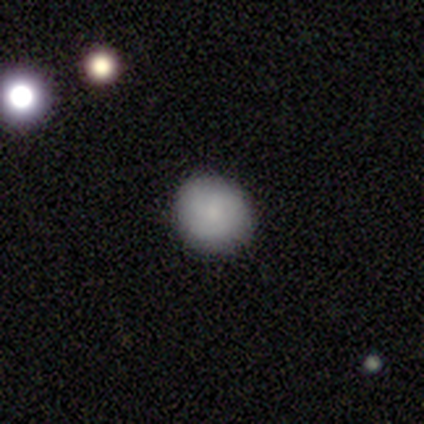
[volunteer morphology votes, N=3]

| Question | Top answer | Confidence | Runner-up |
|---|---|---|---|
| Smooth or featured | smooth | 100% | — |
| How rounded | round | 100% | — |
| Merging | none | 100% | — |